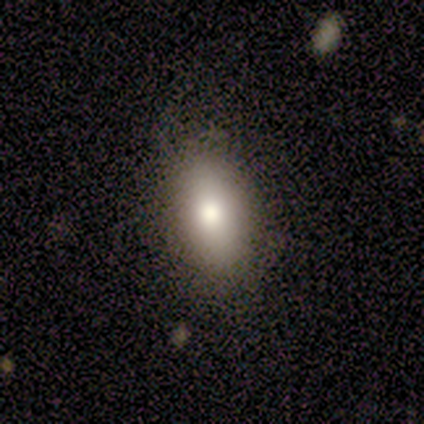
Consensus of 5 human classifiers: smooth_or_featured: smooth (p=0.60) [alt: star or artifact p=0.40]
how_rounded: in between (p=1.00)
merging: none (p=0.67) [alt: minor disturbance p=0.33]